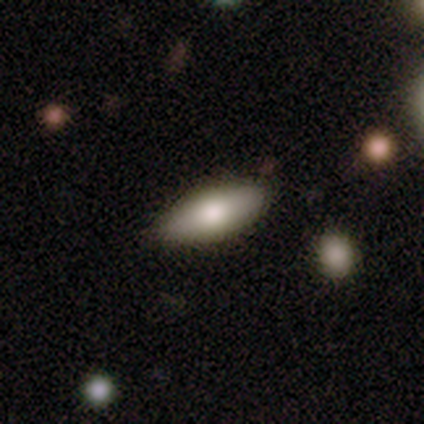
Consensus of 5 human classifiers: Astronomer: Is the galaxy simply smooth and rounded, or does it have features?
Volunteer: smooth — 80%.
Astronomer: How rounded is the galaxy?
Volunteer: in between — 75%.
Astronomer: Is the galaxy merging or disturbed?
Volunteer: none — 80%.